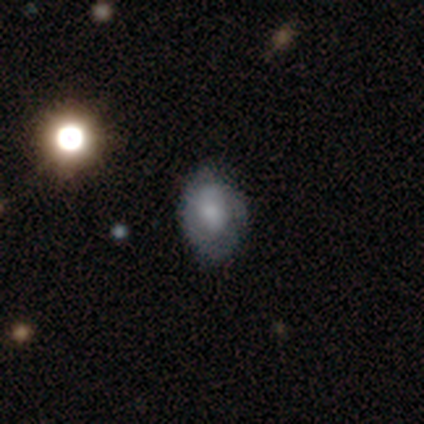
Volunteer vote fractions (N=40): Overall: featured or disk (57%; smooth 38%). Edge-on disk: no (100%). Bar: no (70%). Spiral arms: yes (61%; no 39%). Spiral arm count: can't tell (50%; 2 29%). Spiral winding: tight (50%; loose 29%). Bulge size: small (43%; large 26%). Merging: none (47%; minor disturbance 45%).